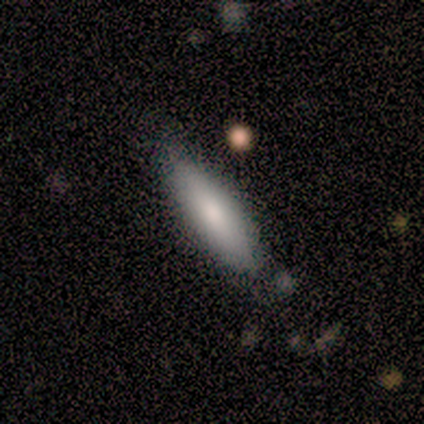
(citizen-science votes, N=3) Smooth or featured? 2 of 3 (67%) said smooth. How rounded? 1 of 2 (50%, tied with cigar-shaped) said in between. Merging? 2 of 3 (67%) said none.